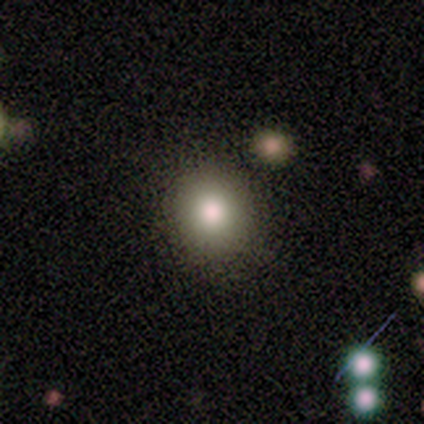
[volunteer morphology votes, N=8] Smooth or featured: smooth — 88% (featured or disk — 12%)
How rounded: round — 100%
Merging: none — 100%